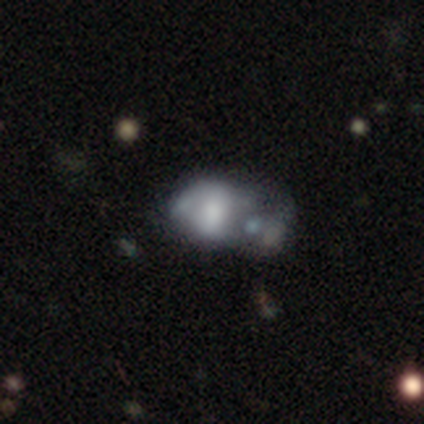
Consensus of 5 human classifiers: Smooth or featured: featured or disk — 60% (smooth — 40%)
Edge-on disk: no — 100%
Bar: no — 100%
Spiral arms: no — 67% (yes — 33%)
Bulge size: dominant — 33% (tied with large — 33%; moderate — 33%)
Merging: major disturbance — 40% (tied with merger — 40%)